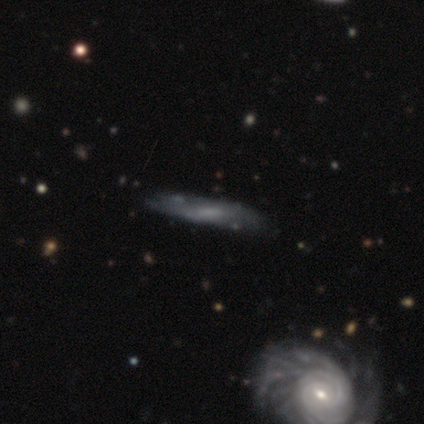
Smooth or featured: featured or disk — 61% (smooth — 34%)
Edge-on disk: no — 52% (yes — 48%)
Bar: weak — 42% (tied with no — 42%)
Spiral arms: yes — 58% (no — 42%)
Spiral winding: tight — 57% (loose — 29%)
Spiral arm count: can't tell — 57% (2 — 29%)
Bulge size: small — 33% (tied with none — 33%)
Merging: none — 78% (minor disturbance — 19%)